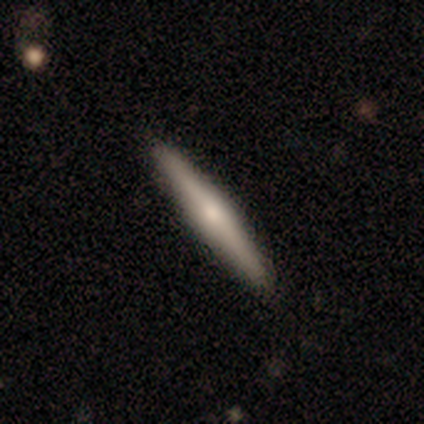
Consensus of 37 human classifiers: Morphology: type=featured or disk (54%); edge-on=yes (100%); edge-on bulge=rounded (100%); merging=none (97%).